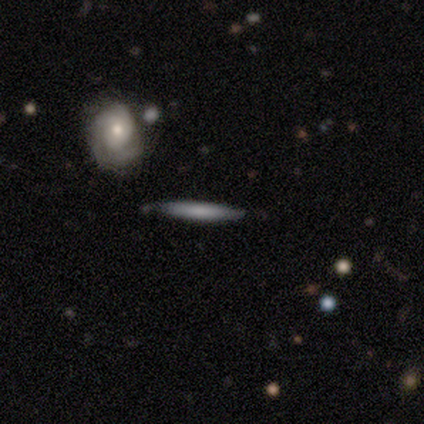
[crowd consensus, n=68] Volunteers were most divided on "smooth or featured": smooth: 59%, featured or disk: 37%, star or artifact: 4%. More confident: how rounded — cigar-shaped (98%); merging — none (74%).